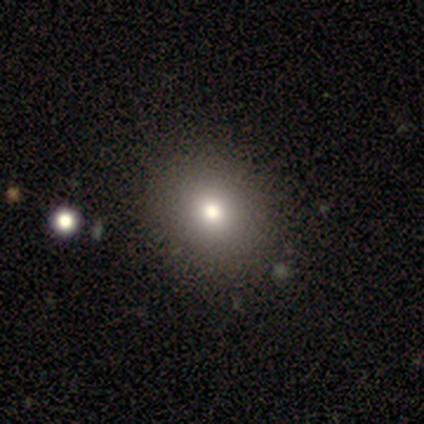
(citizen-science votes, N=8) Overall: smooth (88%). How rounded: round (57%; in between 43%). Merging: none (100%).